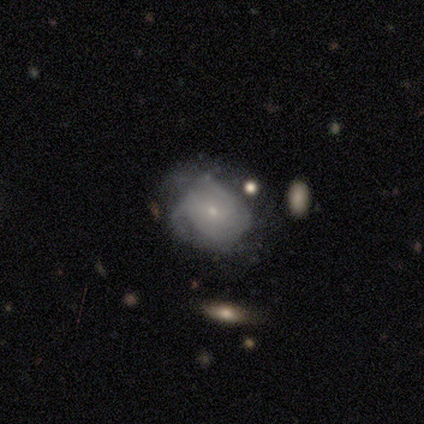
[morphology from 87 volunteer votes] Overall: featured or disk (57%; smooth 33%). Edge-on disk: no (94%). Bar: no (81%). Spiral arms: yes (66%; no 34%). Spiral arm count: can't tell (71%). Spiral winding: tight (52%; medium 35%). Bulge size: small (89%). Merging: none (43%; minor disturbance 34%).